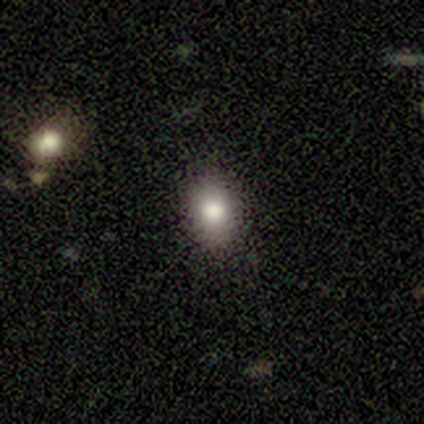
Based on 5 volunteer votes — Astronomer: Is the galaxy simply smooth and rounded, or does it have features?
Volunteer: smooth — 80%.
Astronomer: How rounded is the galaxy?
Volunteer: round — 50%, tied with in between at 50%.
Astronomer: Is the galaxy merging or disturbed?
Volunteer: none — 100%.